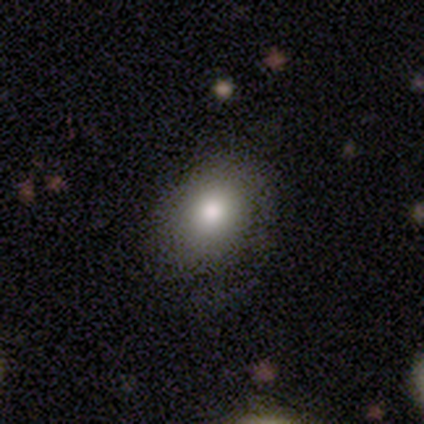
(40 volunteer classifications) A smooth galaxy with no disk features (75%) that is in between round and cigar-shaped (57%). Merging: none (58%).